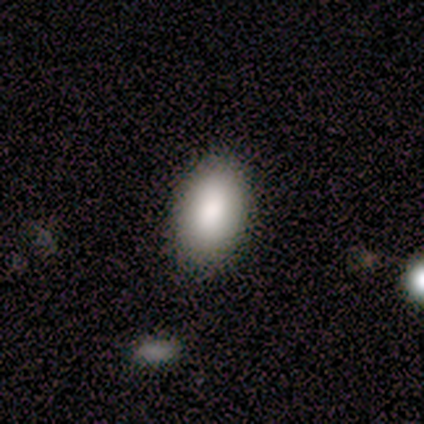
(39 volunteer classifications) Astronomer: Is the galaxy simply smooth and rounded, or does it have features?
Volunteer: smooth — 74%.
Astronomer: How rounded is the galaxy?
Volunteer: in between — 90%.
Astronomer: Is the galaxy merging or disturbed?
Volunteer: none — 91%.